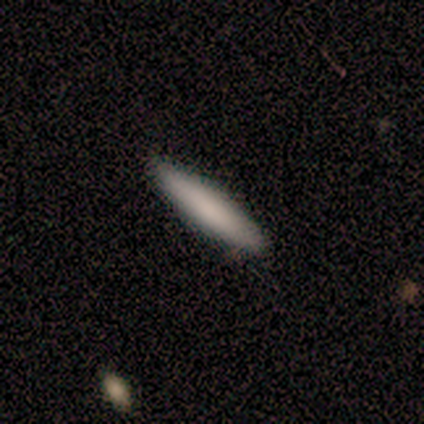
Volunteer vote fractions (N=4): Smooth or featured?
  - smooth: 100% *
  - featured or disk: 0%
  - star or artifact: 0%
How rounded?
  - cigar-shaped: 75% *
  - in between: 25%
  - round: 0%
Merging?
  - none: 100% *
  - minor disturbance: 0%
  - major disturbance: 0%
  - merger: 0%